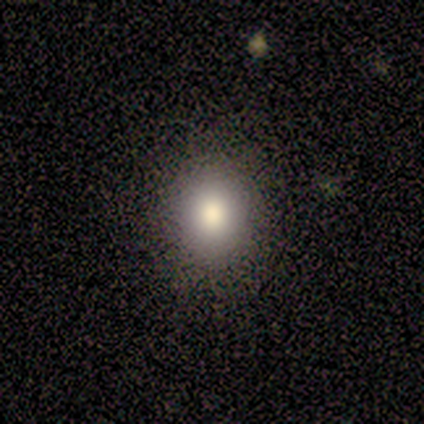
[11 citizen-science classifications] Morphology: type=smooth (82%); roundness=round (56%); merging=none (90%).